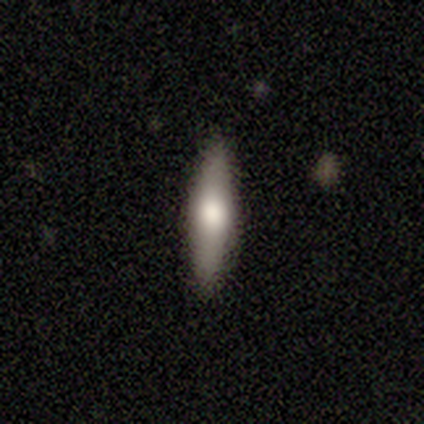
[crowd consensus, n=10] Smooth or featured?
  - smooth: 60% *
  - featured or disk: 40%
  - star or artifact: 0%
How rounded?
  - in between: 50% * (tied)
  - cigar-shaped: 50% * (tied)
  - round: 0%
Merging?
  - none: 80% *
  - minor disturbance: 20%
  - major disturbance: 0%
  - merger: 0%